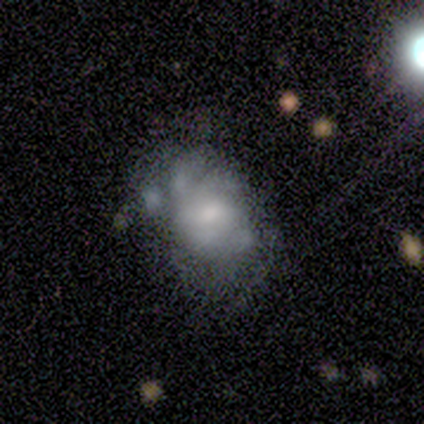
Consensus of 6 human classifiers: Q: Smooth or featured?
A: featured or disk (83%); runner-up: smooth (17%)
Q: Edge-on disk?
A: no (100%)
Q: Bar?
A: no (60%); runner-up: weak (40%)
Q: Spiral arms?
A: no (60%); runner-up: yes (40%)
Q: Bulge size?
A: moderate (60%); runner-up: small (20%)
Q: Merging?
A: none (50%); runner-up: major disturbance (33%)